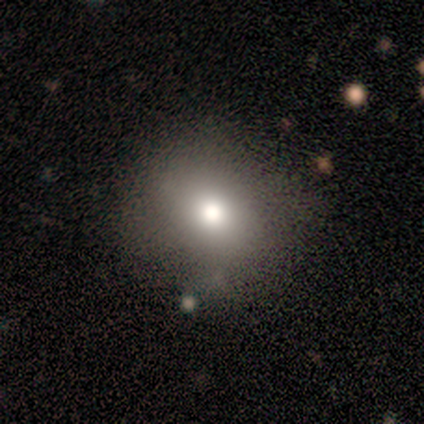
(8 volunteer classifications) Overall: smooth (50%; featured or disk 38%). How rounded: round (75%). Merging: none (57%; minor disturbance 29%).